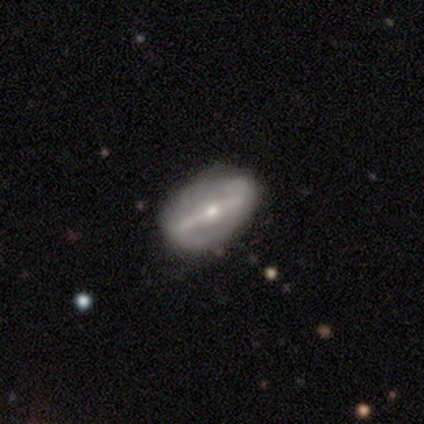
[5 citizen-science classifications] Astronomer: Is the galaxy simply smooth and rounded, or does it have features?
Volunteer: featured or disk — 80%.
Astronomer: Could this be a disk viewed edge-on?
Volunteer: yes — 50%, tied with no at 50%.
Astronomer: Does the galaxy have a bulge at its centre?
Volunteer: rounded — 100%.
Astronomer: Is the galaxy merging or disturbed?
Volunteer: none — 100%.